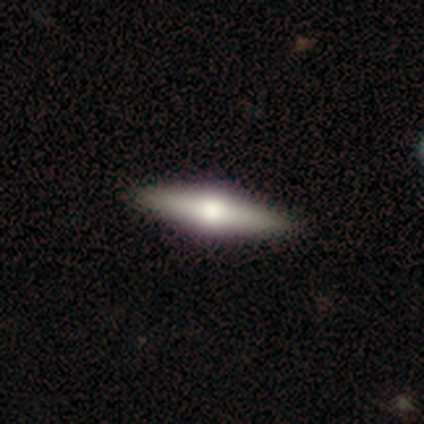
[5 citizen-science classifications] This appears to be a featured or disk galaxy (80%) viewed edge-on (100%) with a boxy central bulge (50%, tied with rounded). Merging: none (100%).